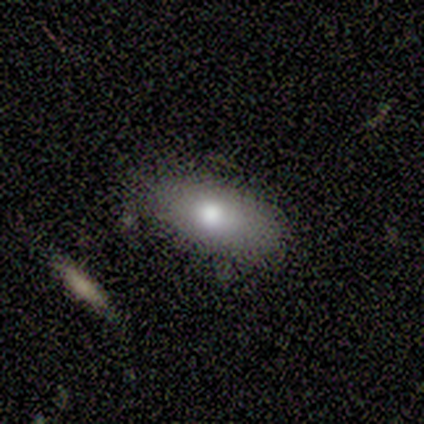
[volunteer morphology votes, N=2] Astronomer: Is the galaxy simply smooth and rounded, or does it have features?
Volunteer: smooth — 50%, tied with featured or disk at 50%.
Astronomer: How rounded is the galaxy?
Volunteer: in between — 100%.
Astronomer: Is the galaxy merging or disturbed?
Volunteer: none — 100%.